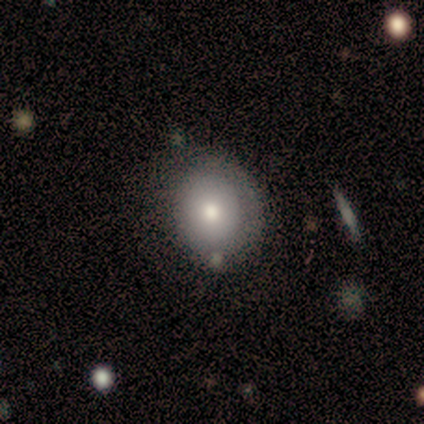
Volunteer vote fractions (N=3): smooth 67%, featured or disk 33%, star or artifact 0%. Down the decision tree: how rounded — round (50%, tied with in between); merging — none (100%).